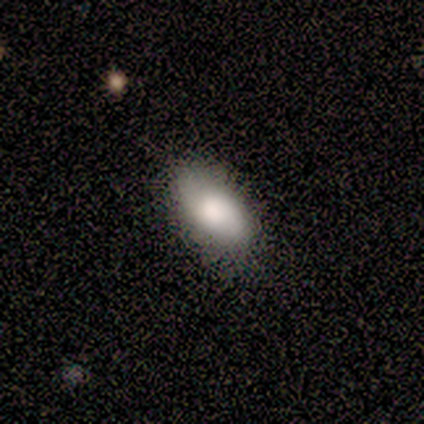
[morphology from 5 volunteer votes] Volunteers were most divided on "smooth or featured": smooth: 80%, featured or disk: 20%, star or artifact: 0%. More confident: how rounded — in between (100%); merging — none (80%).